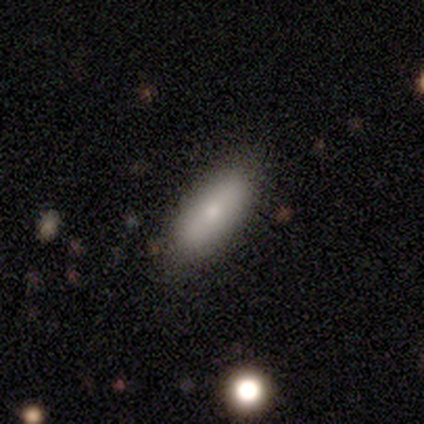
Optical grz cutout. It shows a smooth galaxy with no disk features (100%) that is in between round and cigar-shaped (80%). Merging: none (100%).